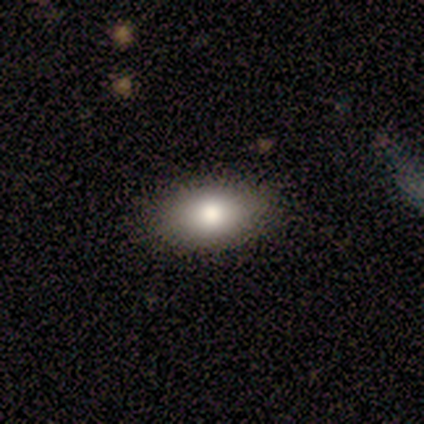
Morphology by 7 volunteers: A smooth galaxy with no disk features (71%) that is in between round and cigar-shaped (100%).

Vote fractions:
- Smooth or featured? smooth: 71% / featured or disk: 14% / star or artifact: 14%
- How rounded? in between: 100% / round: 0% / cigar-shaped: 0%
- Merging? none: 100% / minor disturbance: 0% / major disturbance: 0% / merger: 0%